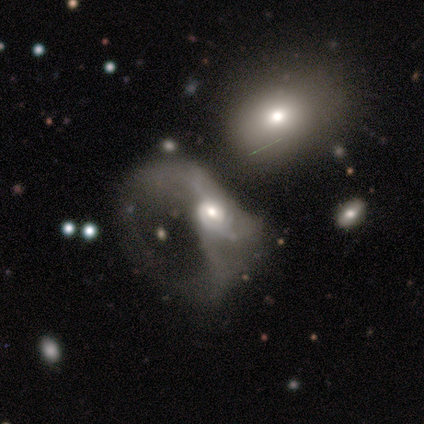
Smooth or featured? 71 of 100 (71%) said featured or disk. Edge-on disk? 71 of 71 (100%) said no. Bar? 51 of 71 (72%) said no. Spiral arms? 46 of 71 (65%) said yes. Spiral winding? 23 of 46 (50%) said loose. Spiral arm count? 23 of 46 (50%) said can't tell. Bulge size? 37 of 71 (52%) said moderate. Merging? 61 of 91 (67%) said major disturbance.